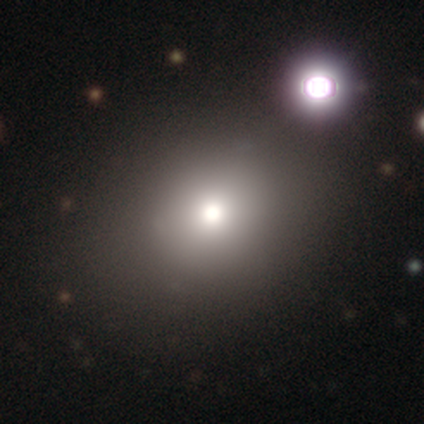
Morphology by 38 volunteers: Q: Smooth or featured?
A: smooth (61%); runner-up: featured or disk (24%)
Q: How rounded?
A: round (74%); runner-up: in between (26%)
Q: Merging?
A: none (75%); runner-up: minor disturbance (9%)